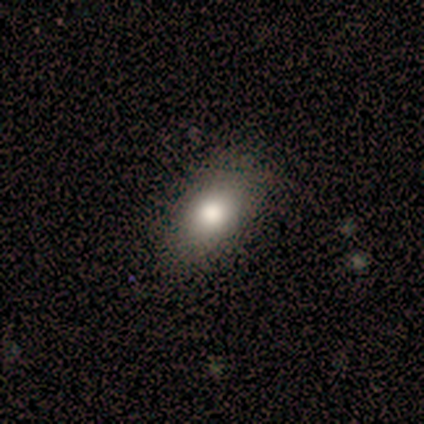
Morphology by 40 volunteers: Volunteers were most divided on "smooth or featured": smooth: 72%, featured or disk: 22%, star or artifact: 5%. More confident: merging — none (95%); how rounded — in between (90%).